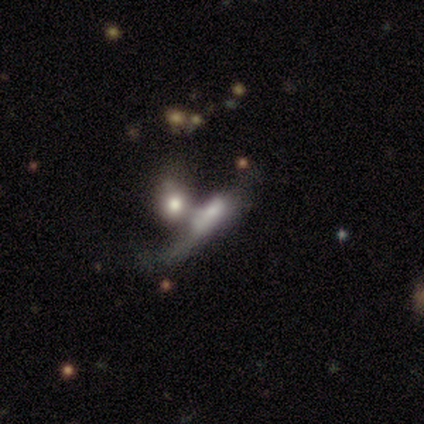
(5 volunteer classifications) Smooth or featured: featured or disk — 60% (smooth — 40%)
Edge-on disk: no — 100%
Bar: no — 67% (weak — 33%)
Spiral arms: no — 67% (yes — 33%)
Bulge size: small — 67% (moderate — 33%)
Merging: merger — 80% (none — 20%)